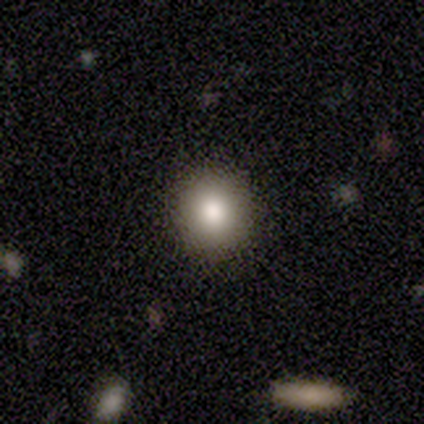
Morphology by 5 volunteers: type=smooth (60%); roundness=round (100%); merging=none (100%).